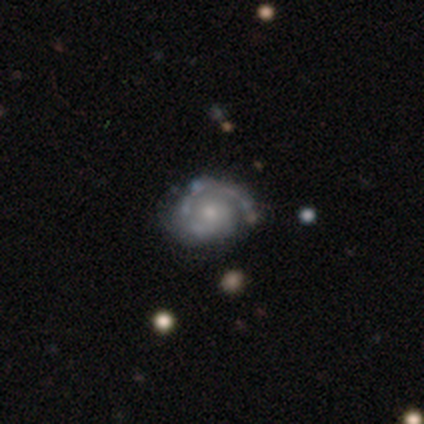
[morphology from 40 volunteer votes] A featured or disk galaxy (82%) with no bar (88%), 1 (61%) tight (84%) spiral arms (94%) and a small central bulge (64%).

Vote fractions:
- Smooth or featured? featured or disk: 82% / smooth: 12% / star or artifact: 5%
- Edge-on disk? no: 100% / yes: 0%
- Bar? no: 88% / weak: 12% / strong: 0%
- Spiral arms? yes: 94% / no: 6%
- Spiral winding? tight: 84% / medium: 13% / loose: 3%
- Spiral arm count? 1: 61% / 2: 29% / can't tell: 10% / 3: 0% / 4: 0% / more than 4: 0%
- Bulge size? small: 64% / moderate: 33% / large: 3% / dominant: 0% / none: 0%
- Merging? none: 76% / minor disturbance: 16% / merger: 5% / major disturbance: 3%